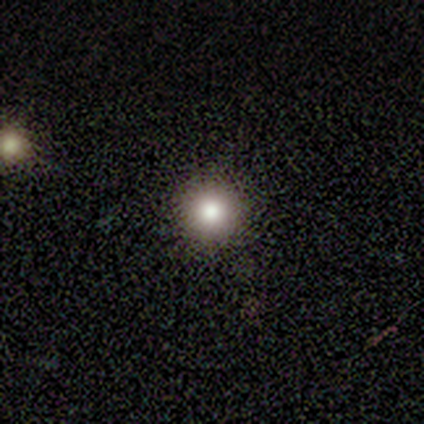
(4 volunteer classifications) A featured or disk galaxy (50%) with no bar (100%), no spiral arms (100%) and a large central bulge (50%, tied with moderate).

Vote fractions:
- Smooth or featured? featured or disk: 50% / smooth: 25% / star or artifact: 25%
- Edge-on disk? no: 100% / yes: 0%
- Bar? no: 100% / strong: 0% / weak: 0%
- Spiral arms? no: 100% / yes: 0%
- Bulge size? large: 50% (tied) / moderate: 50% (tied) / dominant: 0% / small: 0% / none: 0%
- Merging? none: 100% / minor disturbance: 0% / major disturbance: 0% / merger: 0%